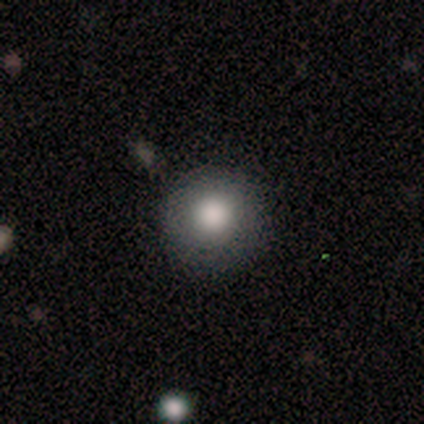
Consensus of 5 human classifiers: Smooth or featured: smooth — 60% (featured or disk — 20%)
How rounded: round — 67% (in between — 33%)
Merging: none — 50% (minor disturbance — 25%)